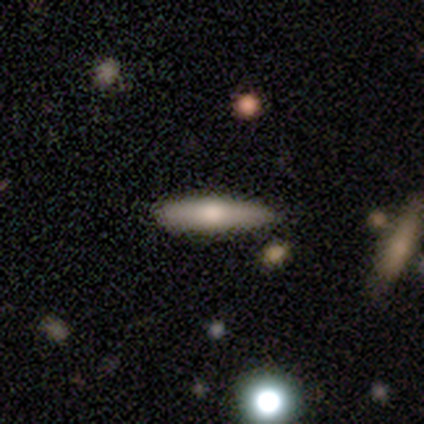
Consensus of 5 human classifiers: Smooth or featured: smooth — 100%
How rounded: cigar-shaped — 100%
Merging: none — 60% (minor disturbance — 20%)